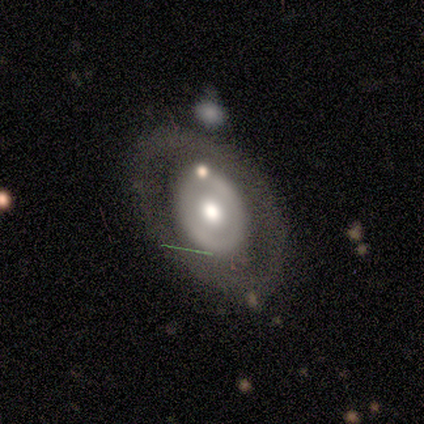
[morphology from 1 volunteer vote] Smooth or featured? 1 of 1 (100%) said smooth. How rounded? 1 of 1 (100%) said in between. Merging? 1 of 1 (100%) said minor disturbance.